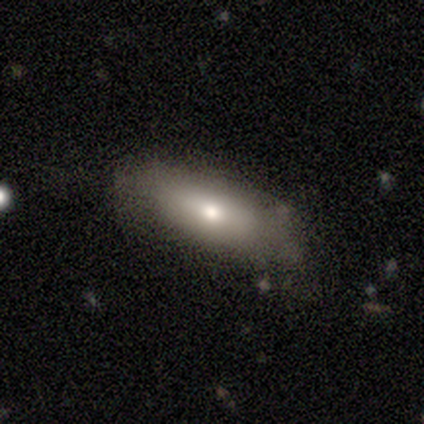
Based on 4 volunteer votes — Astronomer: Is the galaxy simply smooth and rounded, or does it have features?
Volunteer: smooth — 100%.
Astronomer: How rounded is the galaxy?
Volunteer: in between — 75%.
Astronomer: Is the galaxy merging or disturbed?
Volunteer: none — 50%.